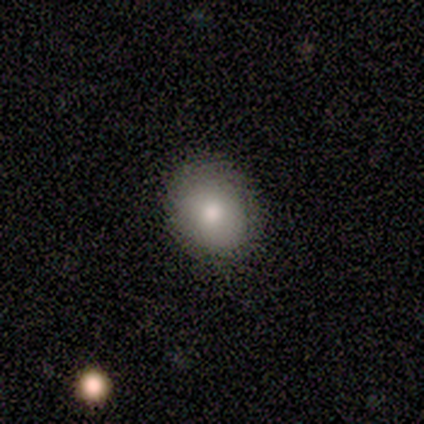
A smooth galaxy with no disk features (60%) that is in between round and cigar-shaped (100%).

Vote fractions:
- Smooth or featured? smooth: 60% / featured or disk: 40% / star or artifact: 0%
- How rounded? in between: 100% / round: 0% / cigar-shaped: 0%
- Merging? none: 80% / major disturbance: 20% / minor disturbance: 0% / merger: 0%